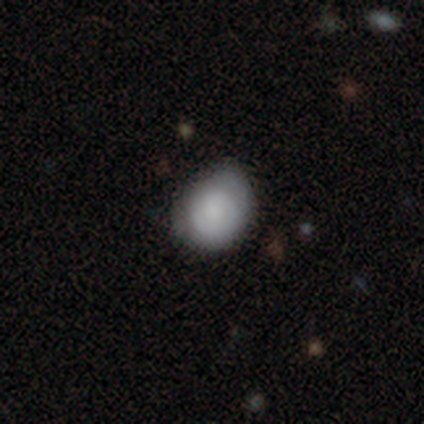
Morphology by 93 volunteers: Smooth or featured? 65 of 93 (70%) said smooth. How rounded? 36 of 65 (55%) said in between. Merging? 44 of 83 (53%) said none.